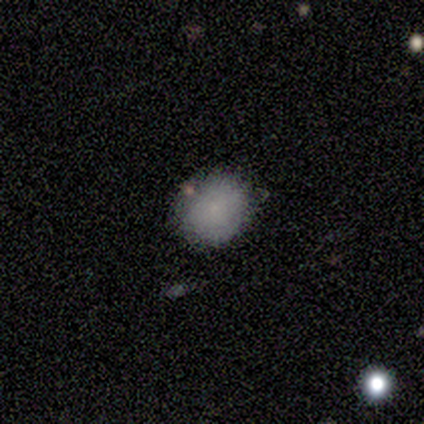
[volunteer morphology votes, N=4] Q: Smooth or featured?
A: smooth (100%)
Q: How rounded?
A: in between (75%); runner-up: round (25%)
Q: Merging?
A: none (75%); runner-up: minor disturbance (25%)